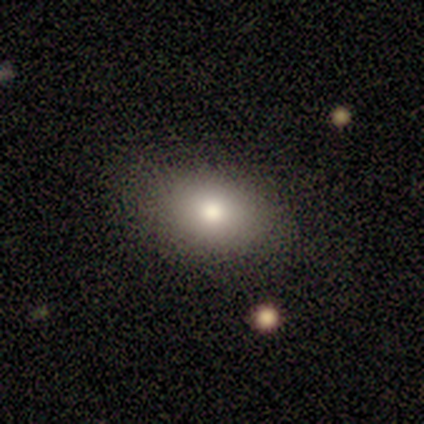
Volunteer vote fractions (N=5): Smooth or featured: smooth — 60% (featured or disk — 20%)
How rounded: in between — 100%
Merging: none — 100%